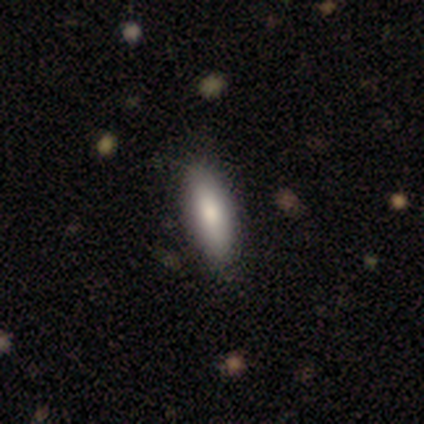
This is clearly a smooth galaxy (100%). How rounded: clearly in between (80%). Merging: clearly none (100%).